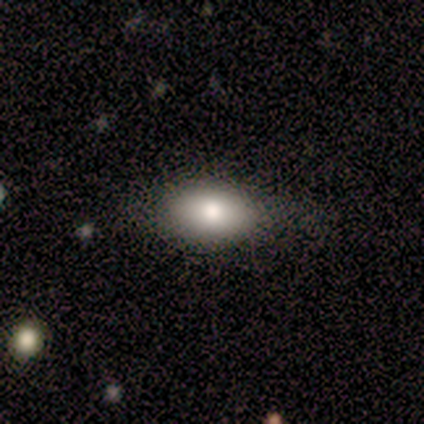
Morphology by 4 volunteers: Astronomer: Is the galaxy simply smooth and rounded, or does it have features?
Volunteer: smooth — 50%.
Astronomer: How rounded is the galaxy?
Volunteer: in between — 100%.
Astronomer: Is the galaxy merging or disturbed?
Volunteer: none — 100%.